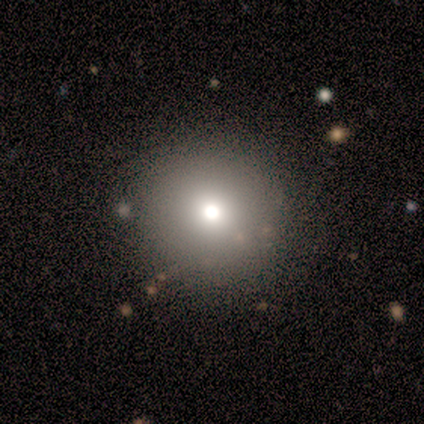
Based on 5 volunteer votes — Smooth or featured? 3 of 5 (60%) said smooth. How rounded? 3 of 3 (100%) said round. Merging? 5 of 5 (100%) said none.